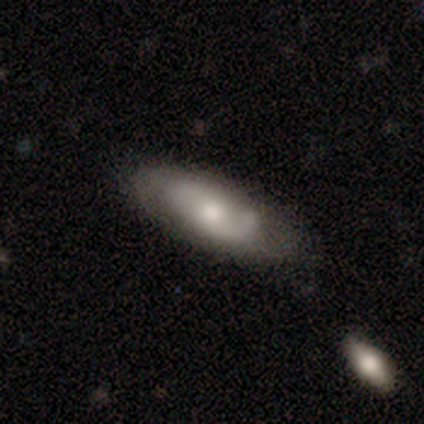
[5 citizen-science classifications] A featured or disk galaxy (60%) with no bar (100%), 2 (100%) tight (33%, tied with medium and loose) spiral arms (100%) and a moderate central bulge (67%).

Vote fractions:
- Smooth or featured? featured or disk: 60% / smooth: 40% / star or artifact: 0%
- Edge-on disk? no: 100% / yes: 0%
- Bar? no: 100% / strong: 0% / weak: 0%
- Spiral arms? yes: 100% / no: 0%
- Spiral winding? tight: 33% (tied) / medium: 33% (tied) / loose: 33% (tied)
- Spiral arm count? 2: 100% / 1: 0% / 3: 0% / 4: 0% / more than 4: 0% / can't tell: 0%
- Bulge size? moderate: 67% / small: 33% / dominant: 0% / large: 0% / none: 0%
- Merging? none: 80% / minor disturbance: 20% / major disturbance: 0% / merger: 0%